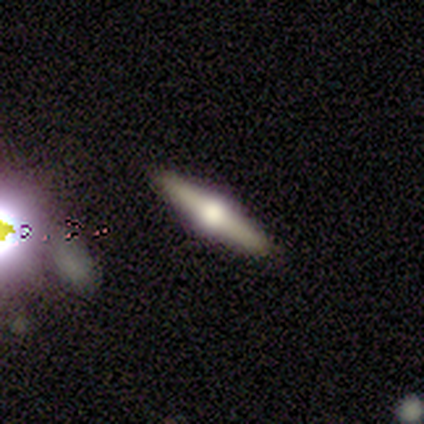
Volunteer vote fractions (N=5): Smooth or featured: featured or disk — 100%
Edge-on disk: yes — 100%
Edge-on bulge: rounded — 100%
Merging: none — 100%